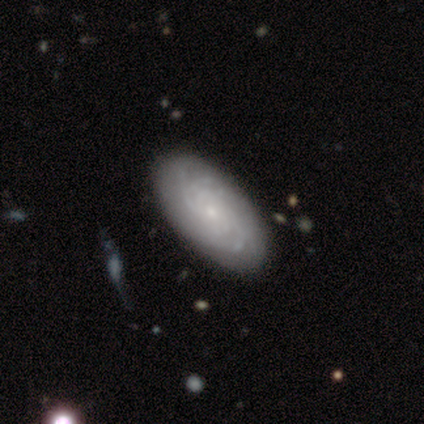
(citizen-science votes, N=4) Smooth or featured? featured or disk (100%)
Edge-on disk? yes (50%, tied with no)
Edge-on bulge? none (50%, tied with rounded)
Merging? major disturbance (50%)